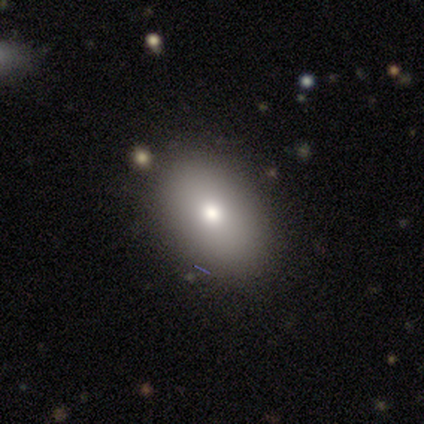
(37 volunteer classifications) This is likely a smooth galaxy (76%). How rounded: clearly in between (82%). Merging: clearly none (92%).